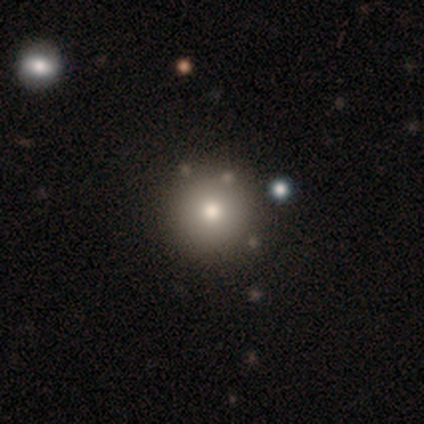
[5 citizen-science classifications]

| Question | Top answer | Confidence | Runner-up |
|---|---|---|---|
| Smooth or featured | smooth | 80% | featured or disk (20%) |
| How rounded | round | 100% | — |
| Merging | merger | 60% | none (40%) |